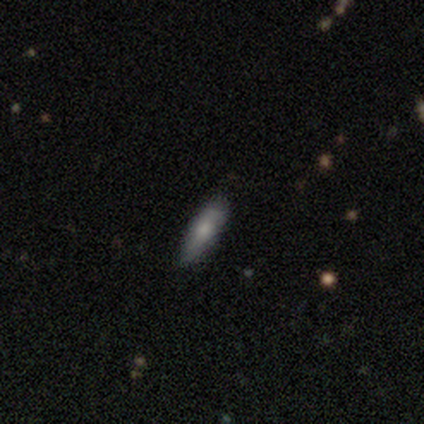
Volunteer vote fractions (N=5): Smooth or featured? 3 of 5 (60%) said featured or disk. Edge-on disk? 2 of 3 (67%) said no. Bar? 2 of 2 (100%) said no. Spiral arms? 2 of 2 (100%) said no. Bulge size? 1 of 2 (50%, tied with none) said small. Merging? 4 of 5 (80%) said none.